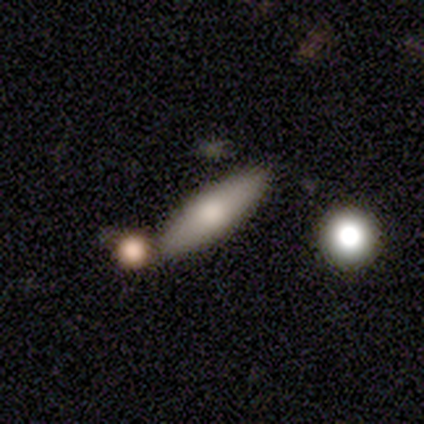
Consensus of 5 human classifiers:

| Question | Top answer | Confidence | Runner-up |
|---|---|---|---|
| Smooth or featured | featured or disk | 60% | smooth (40%) |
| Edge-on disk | yes | 100% | — |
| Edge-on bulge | boxy | 33% | tied: none (33%), rounded (33%) |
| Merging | none | 100% | — |